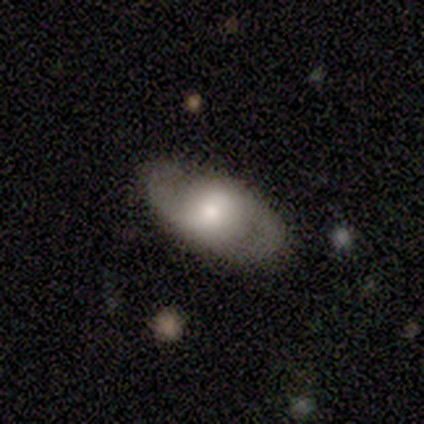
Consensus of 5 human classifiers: featured or disk 60%, smooth 40%, star or artifact 0%. Down the decision tree: edge-on disk — no (100%); bar — weak (100%); spiral arms — yes (67%); spiral arm count — 2 (100%); spiral winding — tight (50%, tied with medium); bulge size — moderate (67%); merging — none (80%).